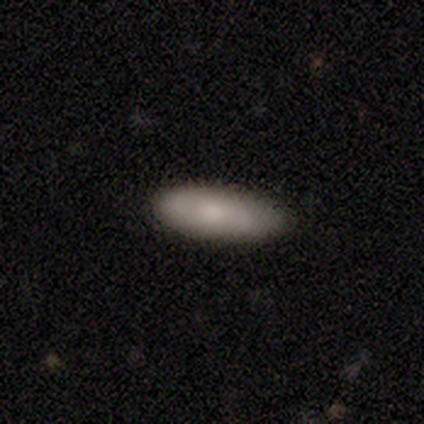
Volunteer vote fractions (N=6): This is clearly a smooth galaxy (100%). How rounded: likely in between (67%). Merging: clearly none (83%).